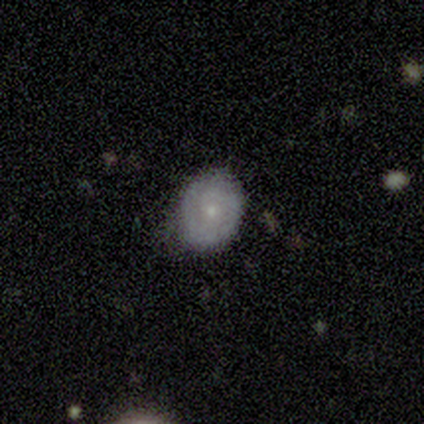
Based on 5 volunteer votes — Morphology: type=smooth (60%); roundness=in between (67%); merging=none (60%).